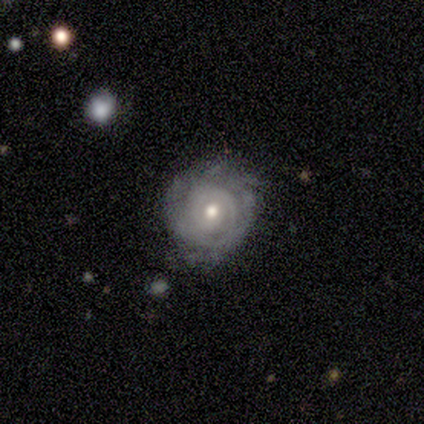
Smooth or featured?
  - featured or disk: 88% *
  - smooth: 10%
  - star or artifact: 2%
Edge-on disk?
  - no: 100% *
  - yes: 0%
Bar?
  - no: 89% *
  - weak: 11%
  - strong: 0%
Spiral arms?
  - yes: 86% *
  - no: 14%
Spiral winding?
  - tight: 87% *
  - medium: 7%
  - loose: 7%
Spiral arm count?
  - can't tell: 53% *
  - 2: 13%
  - 1: 10%
  - more than 4: 10%
  - 3: 7%
  - 4: 7%
Bulge size?
  - moderate: 74% *
  - small: 20%
  - large: 6%
  - dominant: 0%
  - none: 0%
Merging?
  - none: 56% *
  - minor disturbance: 33%
  - major disturbance: 10%
  - merger: 0%